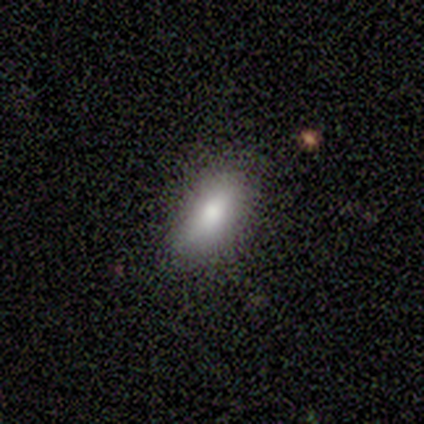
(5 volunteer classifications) Smooth or featured? smooth (80%)
How rounded? in between (50%, tied with cigar-shaped)
Merging? none (80%)